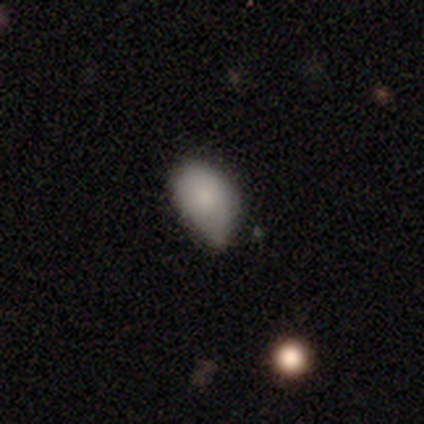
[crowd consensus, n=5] Volunteers were most divided on "smooth or featured": smooth: 60%, star or artifact: 40%, featured or disk: 0%. More confident: how rounded — in between (100%); merging — minor disturbance (67%).